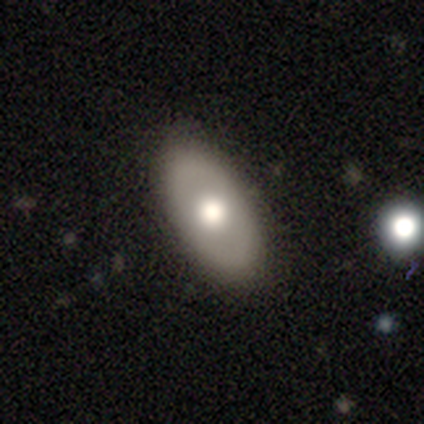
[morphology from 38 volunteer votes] smooth 55%, featured or disk 39%, star or artifact 5%. Down the decision tree: how rounded — in between (90%); merging — none (92%).